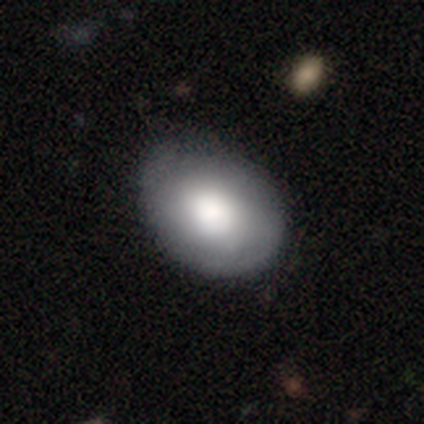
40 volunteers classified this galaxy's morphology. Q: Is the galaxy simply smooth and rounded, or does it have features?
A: smooth — 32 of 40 (80%).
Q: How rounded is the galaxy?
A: in between — 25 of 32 (78%).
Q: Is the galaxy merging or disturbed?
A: none — 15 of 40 (38%).